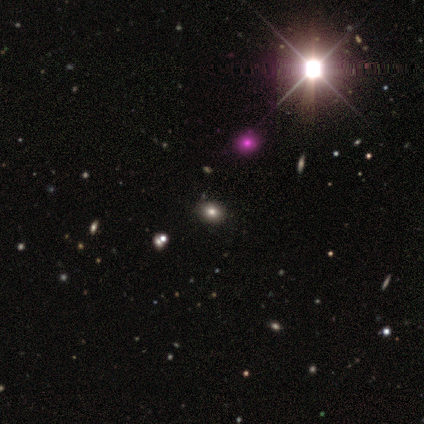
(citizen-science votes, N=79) Smooth or featured: smooth — 54% (star or artifact — 41%)
How rounded: round — 49% (tied with in between — 49%)
Merging: none — 60% (minor disturbance — 6%)